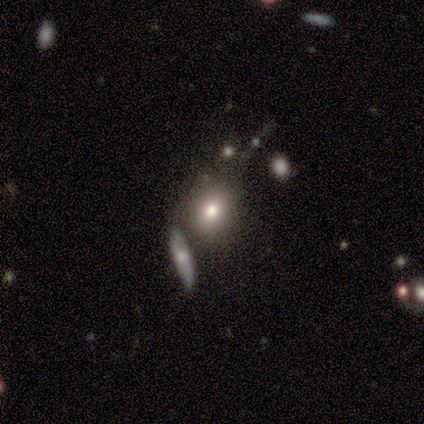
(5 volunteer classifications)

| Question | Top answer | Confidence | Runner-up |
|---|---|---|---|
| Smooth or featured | star or artifact | 60% | smooth (40%) |